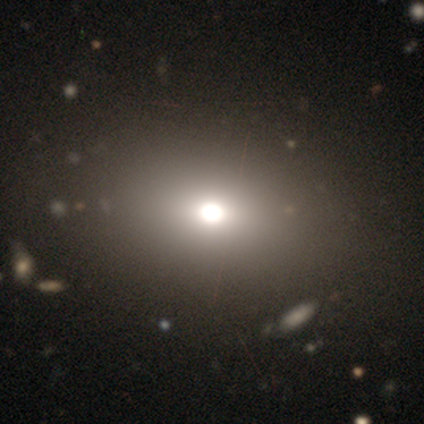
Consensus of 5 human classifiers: Smooth or featured? smooth (100%)
How rounded? in between (60%)
Merging? none (100%)